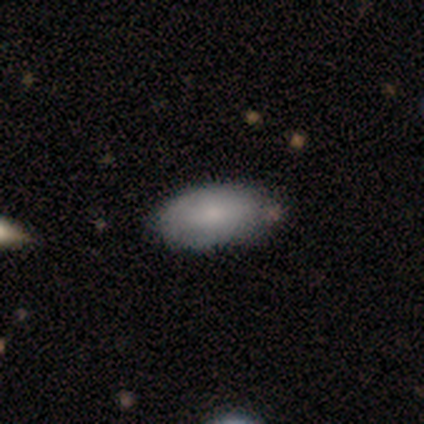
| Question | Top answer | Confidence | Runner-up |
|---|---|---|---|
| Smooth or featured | smooth | 50% | featured or disk (25%) |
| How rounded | in between | 100% | — |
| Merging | none | 67% | minor disturbance (33%) |